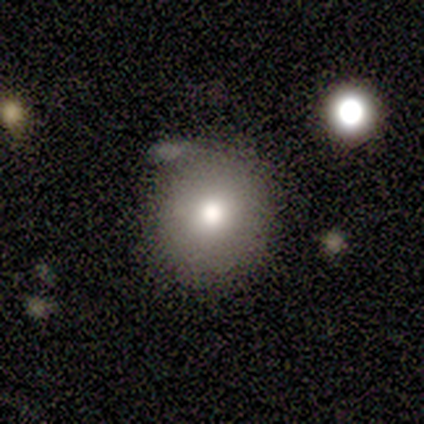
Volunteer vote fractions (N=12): This is possibly a smooth galaxy (50%). How rounded: clearly round (83%). Merging: clearly none (82%).